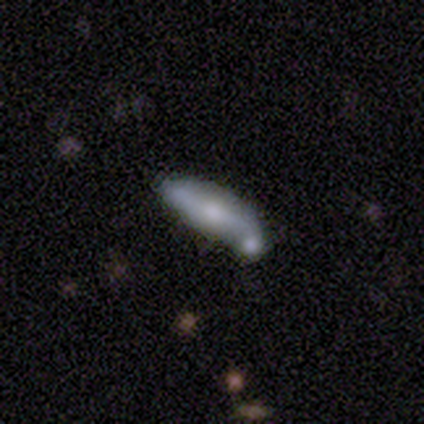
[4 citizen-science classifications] Q: Smooth or featured?
A: featured or disk (100%)
Q: Edge-on disk?
A: yes (50%); tied with: no (50%)
Q: Edge-on bulge?
A: rounded (100%)
Q: Merging?
A: merger (75%); runner-up: none (25%)